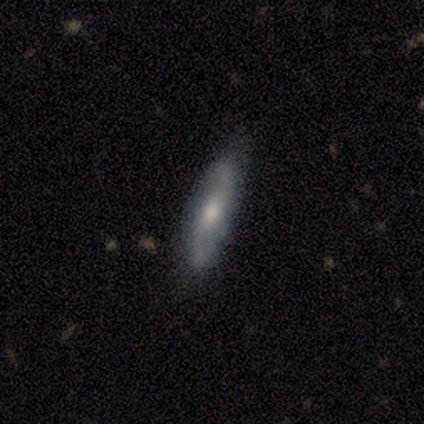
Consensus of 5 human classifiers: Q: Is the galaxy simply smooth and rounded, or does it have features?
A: featured or disk — 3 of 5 (60%).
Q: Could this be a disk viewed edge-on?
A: yes — 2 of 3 (67%).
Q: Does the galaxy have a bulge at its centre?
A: none — 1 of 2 (50%, tied with rounded).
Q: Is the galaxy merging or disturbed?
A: none — 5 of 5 (100%).